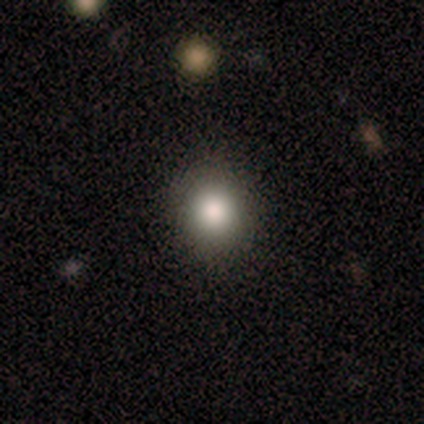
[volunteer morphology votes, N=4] Overall: smooth (100%). How rounded: round (100%). Merging: none (75%).